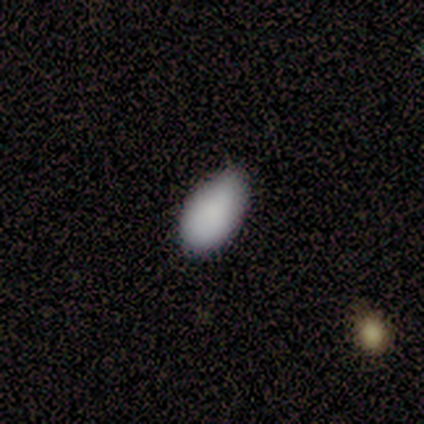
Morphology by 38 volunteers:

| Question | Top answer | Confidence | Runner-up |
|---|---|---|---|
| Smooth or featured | smooth | 79% | featured or disk (16%) |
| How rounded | in between | 87% | round (10%) |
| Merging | none | 69% | minor disturbance (25%) |